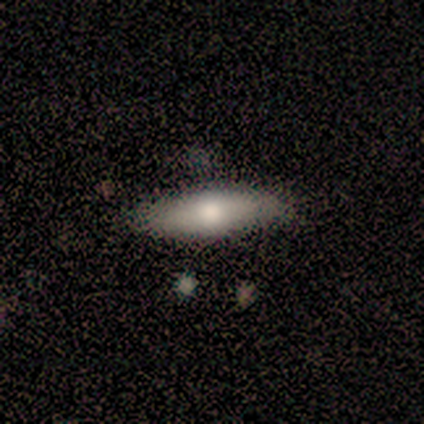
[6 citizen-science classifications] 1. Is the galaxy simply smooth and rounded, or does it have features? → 67% smooth, 33% featured or disk, 0% star or artifact.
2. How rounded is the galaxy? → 75% in between, 25% cigar-shaped, 0% round.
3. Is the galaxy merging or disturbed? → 100% none, 0% minor disturbance, 0% major disturbance, 0% merger.